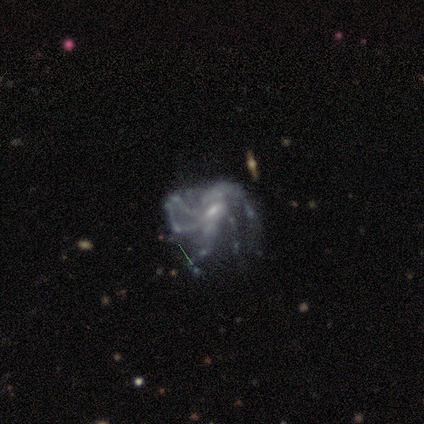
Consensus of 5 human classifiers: Volunteers were most divided on "bar" (2-way tie): weak: 50%, no: 50%, strong: 0%; "spiral arm count" (2-way tie): more than 4: 50%, can't tell: 50%, 1: 0%, 2: 0%, 3: 0%, 4: 0%. More confident: edge-on disk — no (100%); spiral arms — yes (100%); smooth or featured — featured or disk (80%); merging — none (75%); spiral winding — medium (50%); bulge size — small (50%).